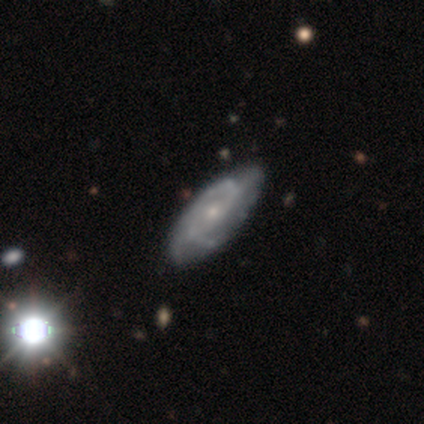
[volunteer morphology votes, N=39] This is likely a featured or disk galaxy (77%). It is clearly not viewed edge-on (97%). Bar: likely no (69%). Spiral arm pattern: clearly yes (93%). Spiral arm count: marginally 2 (41%). Spiral winding: marginally medium (44%). Central bulge: likely small (72%). Merging: likely none (65%).